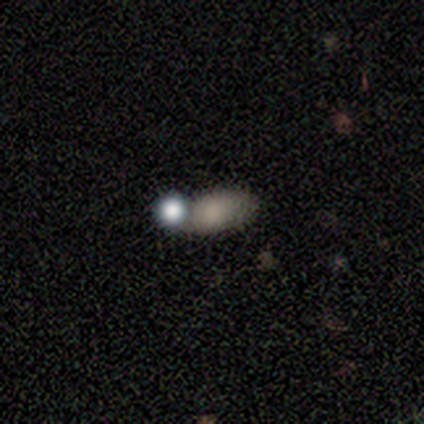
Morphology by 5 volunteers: A smooth galaxy with no disk features (100%) that is in between round and cigar-shaped (80%). Merging: none (40%, tied with merger).